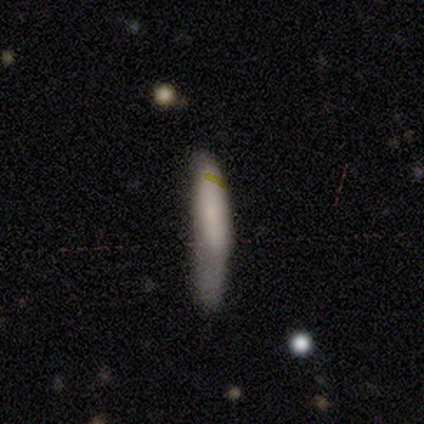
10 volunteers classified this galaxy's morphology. This is likely a smooth galaxy (60%). How rounded: clearly cigar-shaped (100%). Merging: marginally none (44%).